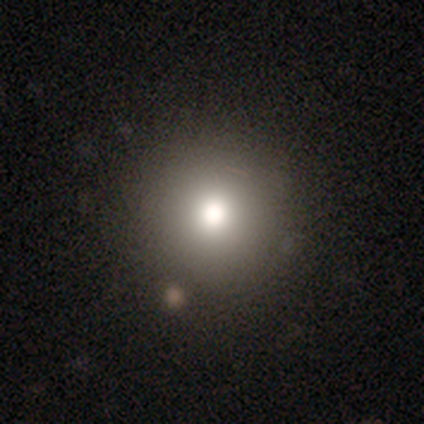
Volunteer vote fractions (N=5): A smooth galaxy with no disk features (80%) that is round (100%).

Vote fractions:
- Smooth or featured? smooth: 80% / featured or disk: 20% / star or artifact: 0%
- How rounded? round: 100% / in between: 0% / cigar-shaped: 0%
- Merging? none: 100% / minor disturbance: 0% / major disturbance: 0% / merger: 0%